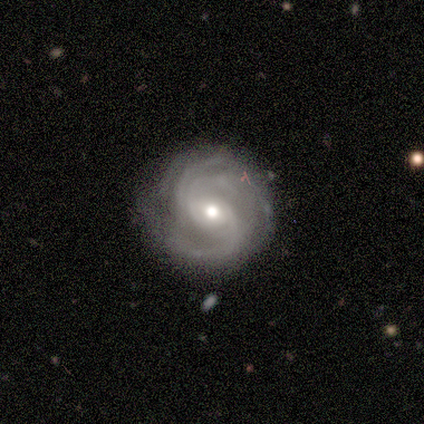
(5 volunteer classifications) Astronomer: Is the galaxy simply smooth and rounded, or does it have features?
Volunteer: featured or disk — 100%.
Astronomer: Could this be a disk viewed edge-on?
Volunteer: no — 100%.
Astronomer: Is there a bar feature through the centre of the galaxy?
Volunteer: no — 60% (runner-up: weak, 40%).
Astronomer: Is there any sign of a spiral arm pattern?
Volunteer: yes — 100%.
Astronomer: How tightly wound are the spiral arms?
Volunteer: tight — 40%, tied with medium at 40%.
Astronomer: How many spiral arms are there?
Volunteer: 2 — 40%, tied with can't tell at 40%.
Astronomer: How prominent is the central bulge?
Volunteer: moderate — 40%, tied with small at 40%.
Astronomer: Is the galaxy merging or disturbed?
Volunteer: none — 80%.